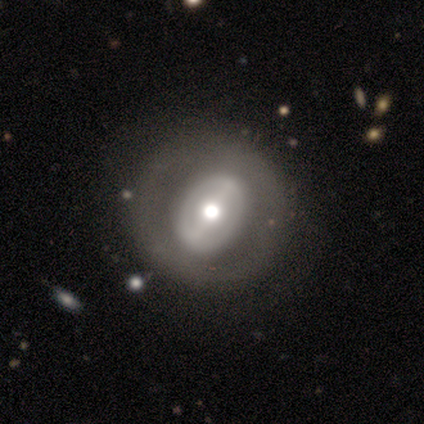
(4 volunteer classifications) A featured or disk galaxy (75%) with a weak bar (67%), no spiral arms (67%) and a moderate central bulge (100%).

Vote fractions:
- Smooth or featured? featured or disk: 75% / smooth: 25% / star or artifact: 0%
- Edge-on disk? no: 100% / yes: 0%
- Bar? weak: 67% / strong: 33% / no: 0%
- Spiral arms? no: 67% / yes: 33%
- Bulge size? moderate: 100% / dominant: 0% / large: 0% / small: 0% / none: 0%
- Merging? none: 100% / minor disturbance: 0% / major disturbance: 0% / merger: 0%